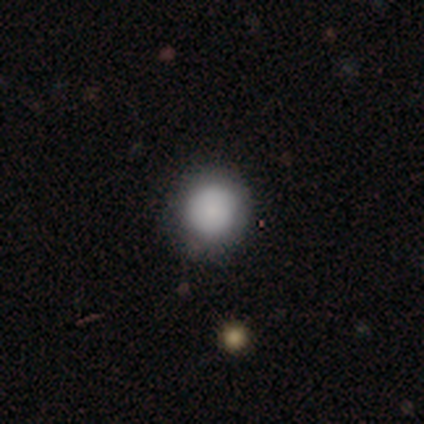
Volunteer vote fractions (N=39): Smooth or featured: smooth — 74% (featured or disk — 15%)
How rounded: round — 93% (in between — 7%)
Merging: none — 86% (minor disturbance — 11%)